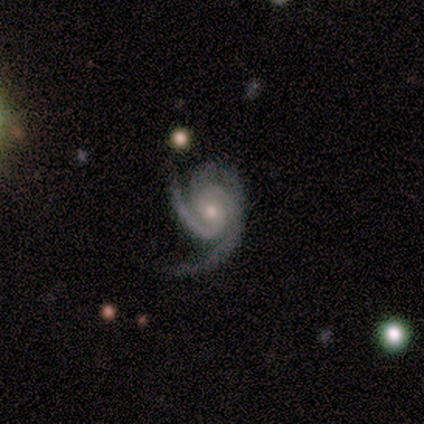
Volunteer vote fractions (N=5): Overall: featured or disk (100%). Edge-on disk: no (100%). Bar: weak (60%; no 40%). Spiral arms: yes (100%). Spiral arm count: 2 (60%; 3 40%). Spiral winding: medium (40%, tied with loose). Bulge size: small (60%; moderate 40%). Merging: none (60%; minor disturbance 20%).